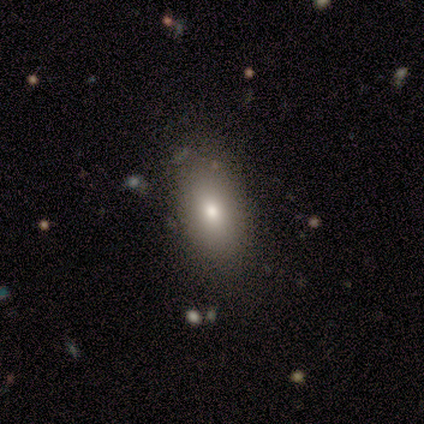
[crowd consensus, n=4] Smooth or featured? 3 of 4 (75%) said smooth. How rounded? 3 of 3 (100%) said in between. Merging? 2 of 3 (67%) said none.